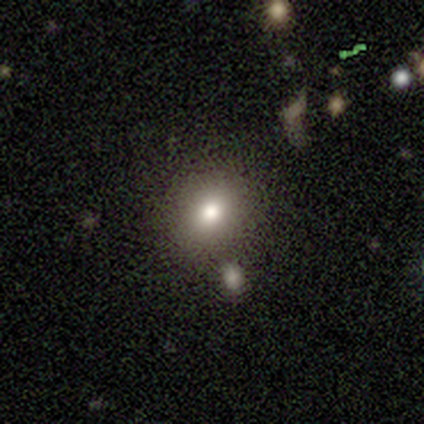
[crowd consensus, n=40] Smooth or featured? smooth (78%)
How rounded? round (61%)
Merging? none (86%)